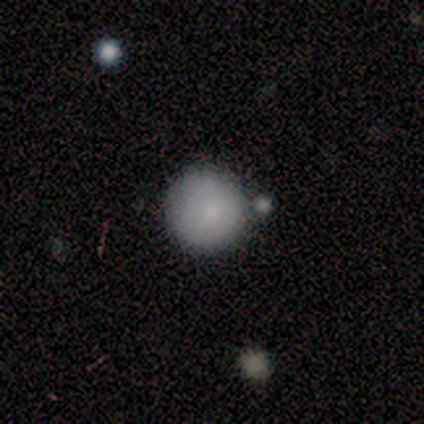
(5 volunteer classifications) Q: Smooth or featured?
A: smooth (100%)
Q: How rounded?
A: round (100%)
Q: Merging?
A: none (80%); runner-up: major disturbance (20%)